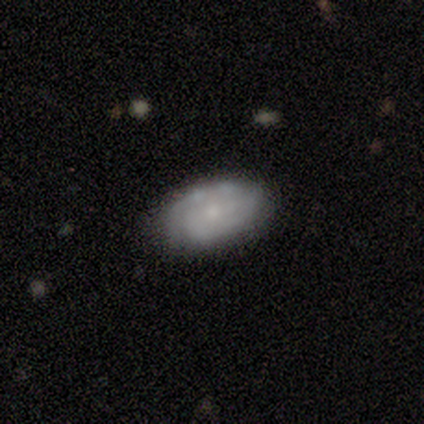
Smooth or featured?
  - smooth: 50% * (tied)
  - featured or disk: 50% * (tied)
  - star or artifact: 0%
How rounded?
  - in between: 100% *
  - round: 0%
  - cigar-shaped: 0%
Merging?
  - none: 100% *
  - minor disturbance: 0%
  - major disturbance: 0%
  - merger: 0%